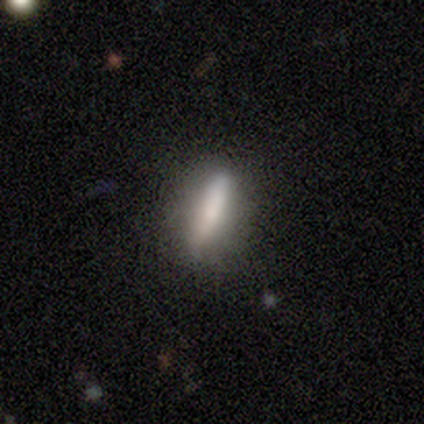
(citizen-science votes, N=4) This appears to be a smooth galaxy with no disk features (75%) that is cigar-shaped (100%). Merging: none (100%).